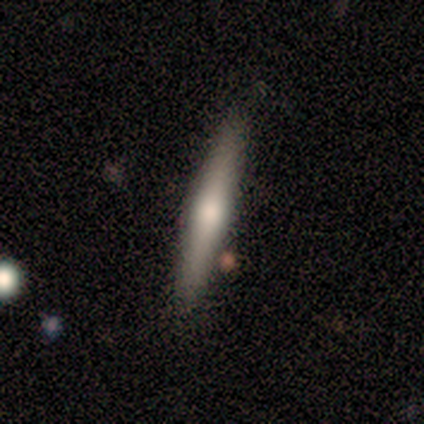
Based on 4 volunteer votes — A smooth galaxy with no disk features (75%) that is cigar-shaped (100%).

Vote fractions:
- Smooth or featured? smooth: 75% / featured or disk: 25% / star or artifact: 0%
- How rounded? cigar-shaped: 100% / round: 0% / in between: 0%
- Merging? none: 100% / minor disturbance: 0% / major disturbance: 0% / merger: 0%